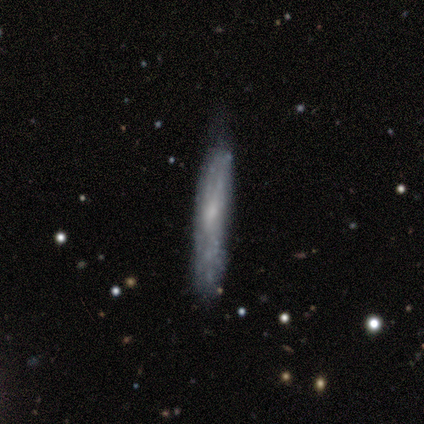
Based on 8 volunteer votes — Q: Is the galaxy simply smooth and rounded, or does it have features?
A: featured or disk — 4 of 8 (50%).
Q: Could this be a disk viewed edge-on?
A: yes — 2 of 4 (50%, tied with no).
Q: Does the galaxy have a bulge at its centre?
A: none — 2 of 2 (100%).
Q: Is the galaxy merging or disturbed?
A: none — 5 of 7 (71%).